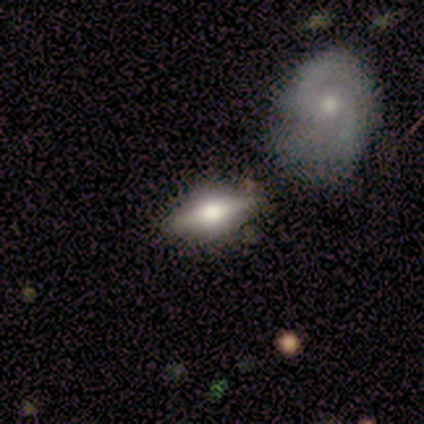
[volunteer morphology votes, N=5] This is clearly a smooth galaxy (100%). How rounded: clearly in between (100%). Merging: marginally none (40%).